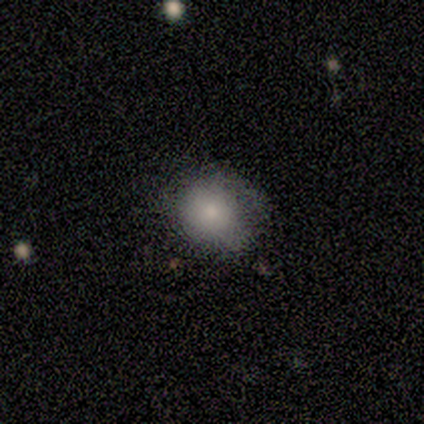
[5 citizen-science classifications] This appears to be a smooth galaxy with no disk features (80%) that is round (75%). Merging: minor disturbance (60%).